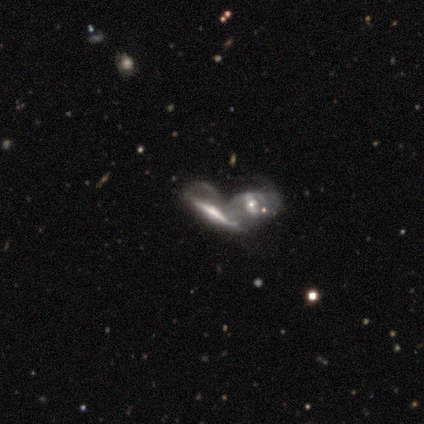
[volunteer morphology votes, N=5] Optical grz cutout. It shows a featured or disk galaxy (80%) viewed edge-on (50%, tied with no) with a rounded central bulge (100%). Merging: merger (100%).